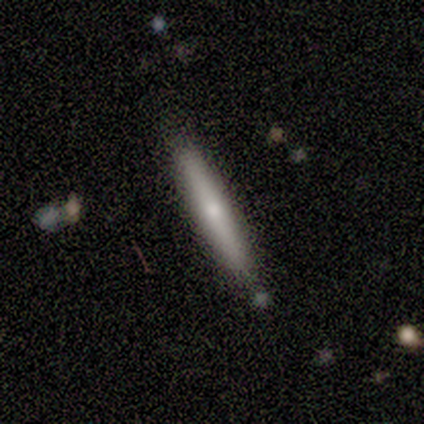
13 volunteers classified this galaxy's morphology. Overall: smooth (62%; featured or disk 38%). How rounded: cigar-shaped (100%). Merging: none (92%).